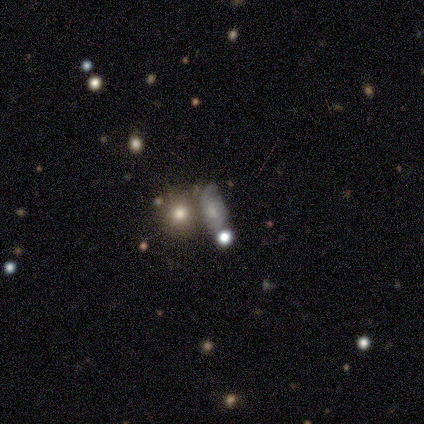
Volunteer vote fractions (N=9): Volunteers were most divided on "merging" (2-way tie): none: 43%, merger: 43%, minor disturbance: 14%, major disturbance: 0%. Remaining: how rounded — in between (50%); smooth or featured — smooth (44%).